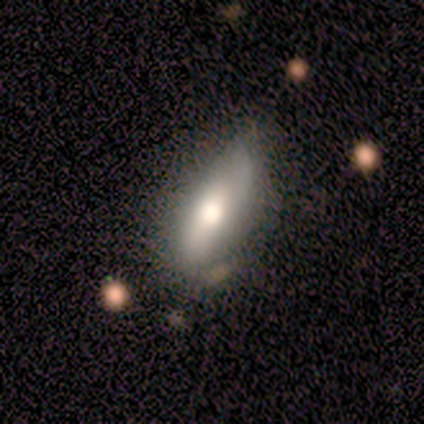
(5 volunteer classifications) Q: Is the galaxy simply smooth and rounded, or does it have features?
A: smooth — 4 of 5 (80%).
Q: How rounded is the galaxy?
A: in between — 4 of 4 (100%).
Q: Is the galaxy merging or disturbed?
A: none — 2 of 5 (40%, tied with minor disturbance).